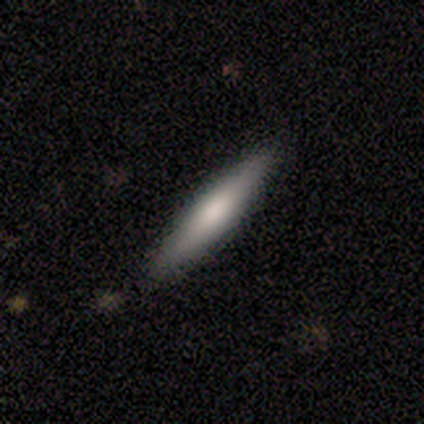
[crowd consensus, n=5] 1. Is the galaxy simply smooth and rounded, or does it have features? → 100% smooth, 0% featured or disk, 0% star or artifact.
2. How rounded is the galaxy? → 80% cigar-shaped, 20% in between, 0% round.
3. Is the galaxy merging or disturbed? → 100% none, 0% minor disturbance, 0% major disturbance, 0% merger.